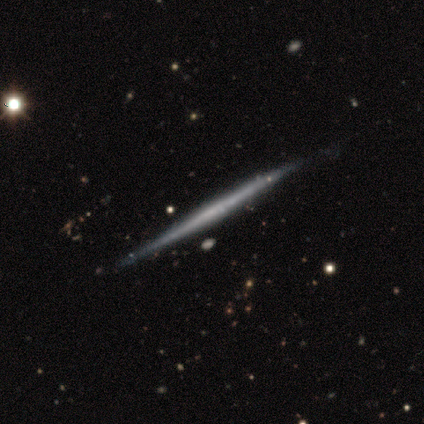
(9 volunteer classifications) Smooth or featured?
  - featured or disk: 67% *
  - smooth: 33%
  - star or artifact: 0%
Edge-on disk?
  - yes: 100% *
  - no: 0%
Edge-on bulge?
  - none: 100% *
  - boxy: 0%
  - rounded: 0%
Merging?
  - none: 100% *
  - minor disturbance: 0%
  - major disturbance: 0%
  - merger: 0%